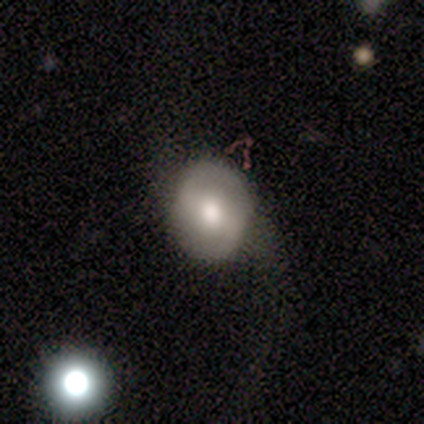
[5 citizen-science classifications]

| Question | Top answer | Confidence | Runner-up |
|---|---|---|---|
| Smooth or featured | smooth | 60% | featured or disk (20%) |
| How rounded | round | 67% | in between (33%) |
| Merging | none | 100% | — |